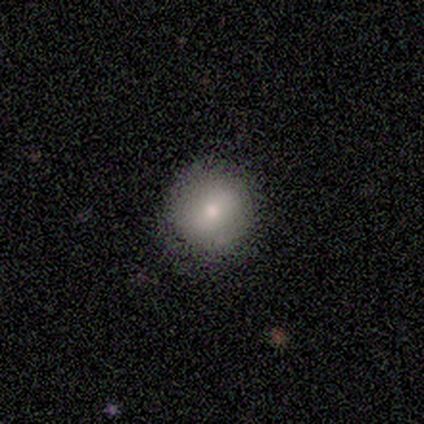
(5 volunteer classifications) smooth_or_featured: smooth (p=1.00)
how_rounded: round (p=1.00)
merging: none (p=0.80) [alt: minor disturbance p=0.20]